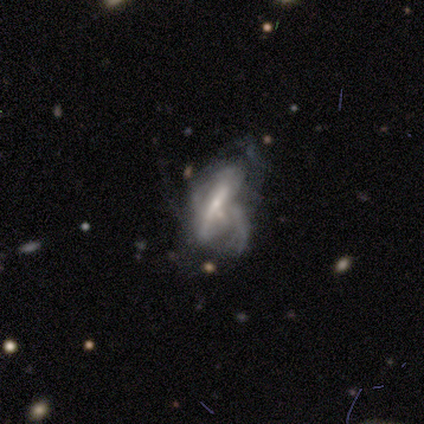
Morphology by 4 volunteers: This is likely a featured or disk galaxy (75%). It is likely not viewed edge-on (67%). Bar: clearly weak (100%). Spiral arm pattern: possibly yes (50%, tied with no). Spiral arm count: clearly can't tell (100%). Spiral winding: clearly tight (100%). Central bulge: clearly small (100%). Merging: likely major disturbance (67%).